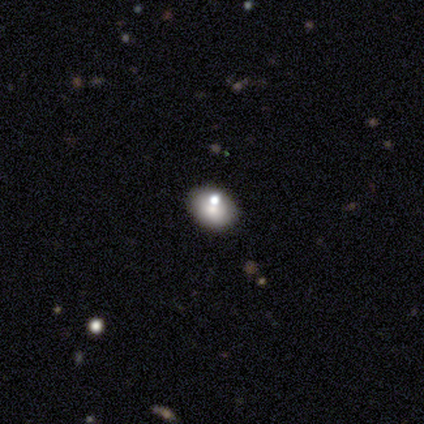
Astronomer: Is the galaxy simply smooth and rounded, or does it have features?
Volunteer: smooth — 60%.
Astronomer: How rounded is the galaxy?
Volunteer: round — 67%.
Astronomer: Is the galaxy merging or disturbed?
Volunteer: none — 50%.